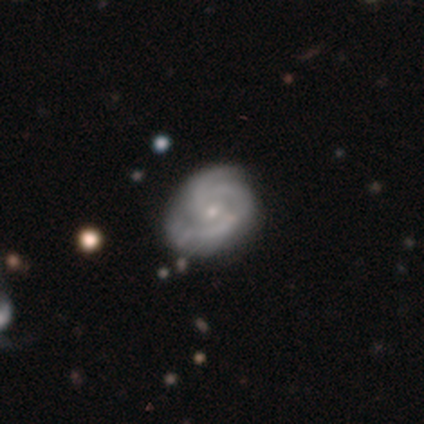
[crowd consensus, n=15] featured or disk 87%, smooth 13%, star or artifact 0%. Down the decision tree: edge-on disk — no (100%); bar — no (69%); spiral arms — yes (92%); spiral arm count — 3 (50%); spiral winding — tight (50%); bulge size — small (69%); merging — none (60%).